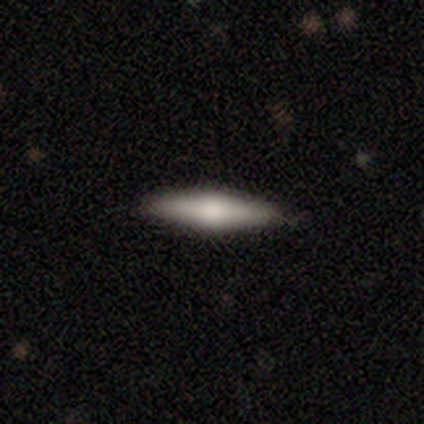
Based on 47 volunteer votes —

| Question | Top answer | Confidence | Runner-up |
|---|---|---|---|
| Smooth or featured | smooth | 49% | featured or disk (40%) |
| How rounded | cigar-shaped | 96% | in between (4%) |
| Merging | none | 93% | minor disturbance (5%) |